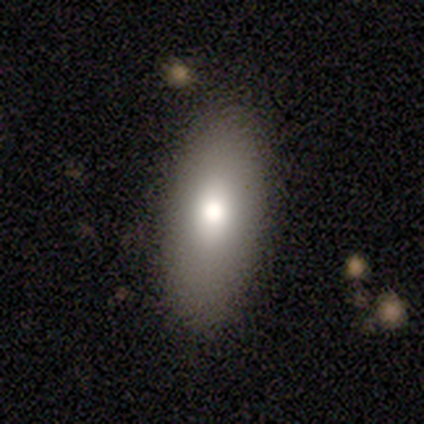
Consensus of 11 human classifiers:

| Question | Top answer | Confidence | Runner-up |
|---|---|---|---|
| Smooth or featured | smooth | 73% | featured or disk (27%) |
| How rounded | in between | 88% | cigar-shaped (12%) |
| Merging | none | 91% | minor disturbance (9%) |